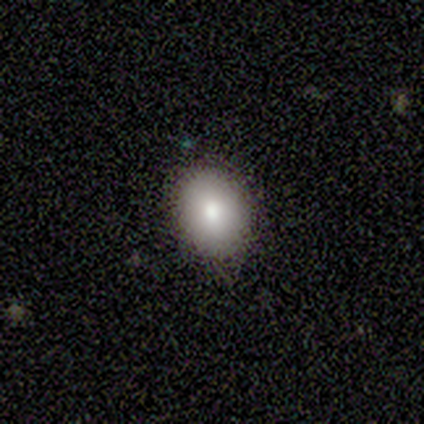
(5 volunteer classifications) This is likely a smooth galaxy (60%). How rounded: likely round (67%). Merging: likely none (75%).